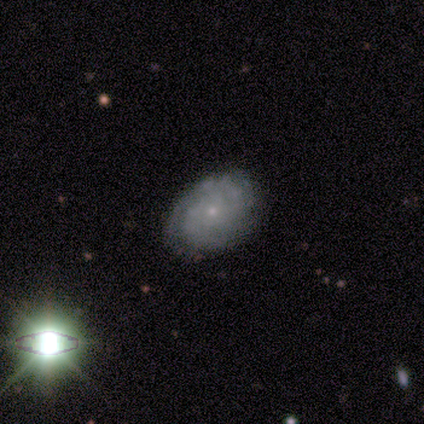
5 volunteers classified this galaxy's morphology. Smooth or featured? 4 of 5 (80%) said featured or disk. Edge-on disk? 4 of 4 (100%) said no. Bar? 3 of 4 (75%) said no. Spiral arms? 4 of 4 (100%) said yes. Spiral winding? 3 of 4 (75%) said medium. Spiral arm count? 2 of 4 (50%) said can't tell. Bulge size? 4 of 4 (100%) said small. Merging? 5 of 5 (100%) said none.